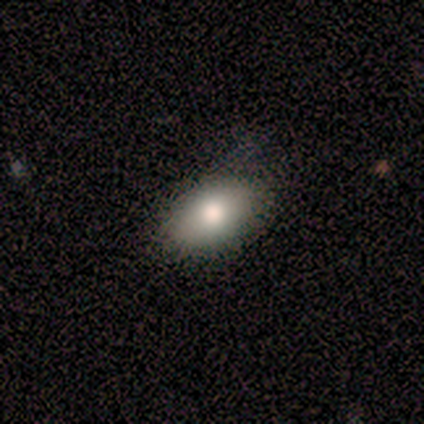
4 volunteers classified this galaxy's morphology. This is clearly a smooth galaxy (100%). How rounded: clearly in between (100%). Merging: clearly none (100%).